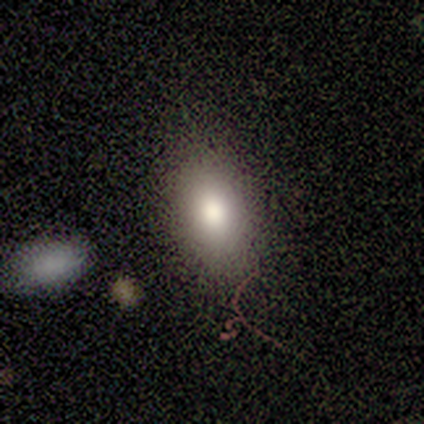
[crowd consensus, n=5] Q: Smooth or featured?
A: smooth (100%)
Q: How rounded?
A: in between (100%)
Q: Merging?
A: none (60%); runner-up: minor disturbance (20%)